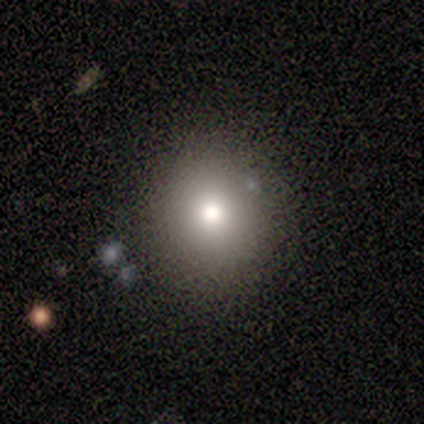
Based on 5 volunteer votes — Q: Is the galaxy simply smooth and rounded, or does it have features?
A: smooth — 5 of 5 (100%).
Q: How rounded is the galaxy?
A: round — 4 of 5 (80%).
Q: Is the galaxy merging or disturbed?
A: none — 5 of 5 (100%).